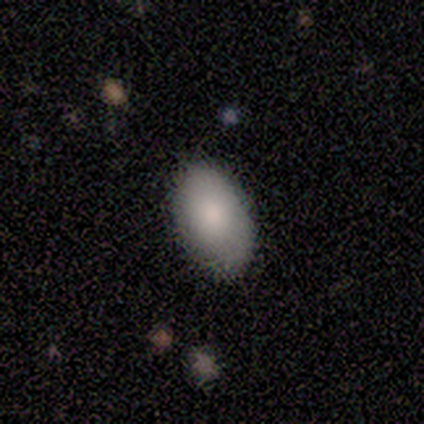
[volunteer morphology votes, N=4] A smooth galaxy with no disk features (100%) that is in between round and cigar-shaped (100%).

Vote fractions:
- Smooth or featured? smooth: 100% / featured or disk: 0% / star or artifact: 0%
- How rounded? in between: 100% / round: 0% / cigar-shaped: 0%
- Merging? none: 100% / minor disturbance: 0% / major disturbance: 0% / merger: 0%